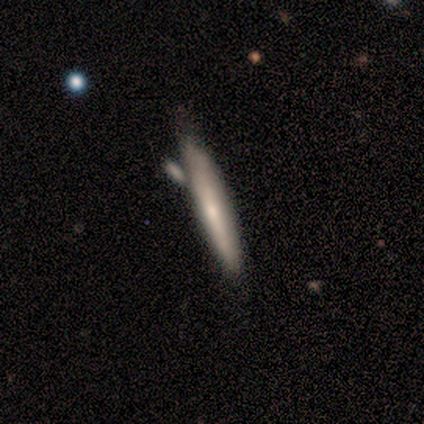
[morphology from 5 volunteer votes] Smooth or featured? smooth (80%)
How rounded? cigar-shaped (100%)
Merging? none (60%)